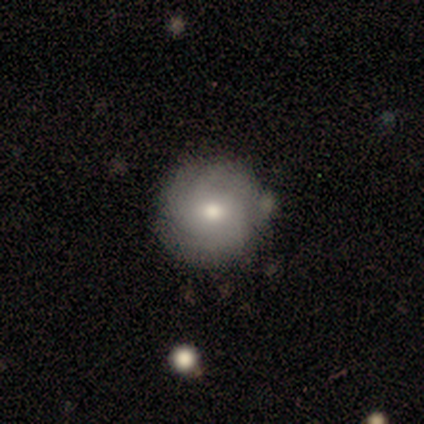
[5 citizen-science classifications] Smooth or featured: featured or disk — 60% (smooth — 20%)
Edge-on disk: no — 100%
Bar: no — 100%
Spiral arms: yes — 67% (no — 33%)
Spiral winding: medium — 50% (tied with loose — 50%)
Spiral arm count: 3 — 100%
Bulge size: moderate — 67% (small — 33%)
Merging: none — 100%